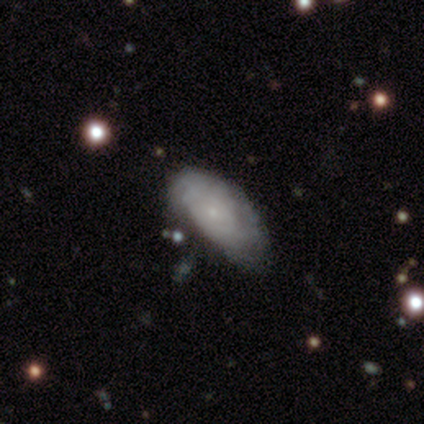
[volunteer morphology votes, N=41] A featured or disk galaxy (51%) with no bar (75%), tight (81%) spiral arms (80%) and a small central bulge (95%). Merging: none (55%).